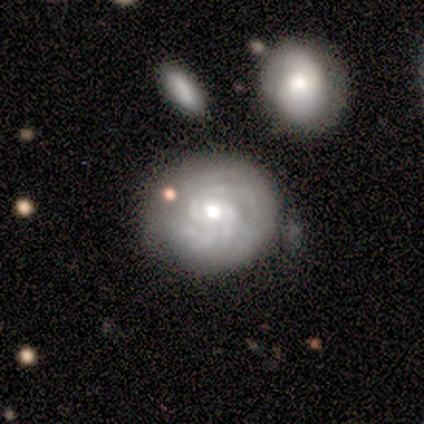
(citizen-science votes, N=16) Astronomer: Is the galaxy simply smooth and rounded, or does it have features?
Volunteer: featured or disk — 69%.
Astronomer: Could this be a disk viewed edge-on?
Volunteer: no — 100%.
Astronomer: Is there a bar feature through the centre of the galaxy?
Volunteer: no — 73%.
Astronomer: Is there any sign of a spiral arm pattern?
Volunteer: yes — 91%.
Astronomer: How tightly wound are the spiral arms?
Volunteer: tight — 60% (runner-up: medium, 40%).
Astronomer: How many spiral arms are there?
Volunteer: can't tell — 60%.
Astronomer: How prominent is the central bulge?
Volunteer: moderate — 73%.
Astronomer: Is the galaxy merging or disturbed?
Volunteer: none — 50% (runner-up: minor disturbance, 38%).